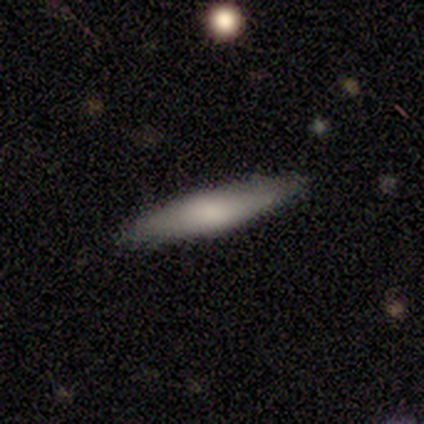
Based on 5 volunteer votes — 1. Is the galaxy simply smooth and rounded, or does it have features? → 60% smooth, 40% featured or disk, 0% star or artifact.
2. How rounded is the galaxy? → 100% cigar-shaped, 0% round, 0% in between.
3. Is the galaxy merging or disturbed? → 100% none, 0% minor disturbance, 0% major disturbance, 0% merger.